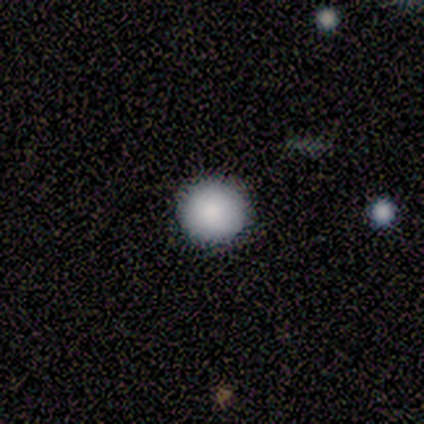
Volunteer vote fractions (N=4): Smooth or featured?
  - smooth: 75% *
  - featured or disk: 25%
  - star or artifact: 0%
How rounded?
  - round: 67% *
  - in between: 33%
  - cigar-shaped: 0%
Merging?
  - none: 100% *
  - minor disturbance: 0%
  - major disturbance: 0%
  - merger: 0%